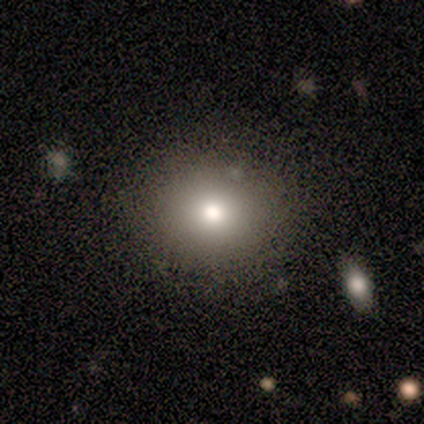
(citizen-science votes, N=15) Smooth or featured? 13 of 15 (87%) said smooth. How rounded? 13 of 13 (100%) said round. Merging? 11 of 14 (79%) said none.